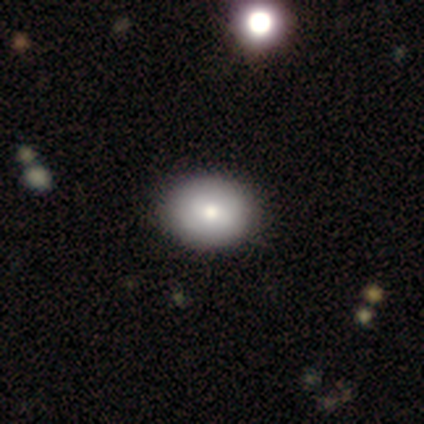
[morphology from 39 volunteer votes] This is likely a smooth galaxy (77%). How rounded: likely in between (63%). Merging: possibly none (59%).